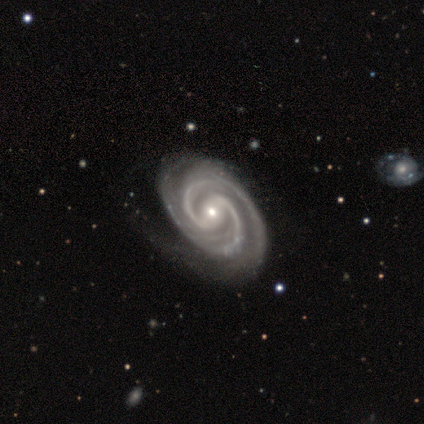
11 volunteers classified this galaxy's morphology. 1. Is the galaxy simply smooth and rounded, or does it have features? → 91% featured or disk, 9% star or artifact, 0% smooth.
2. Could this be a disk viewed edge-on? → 100% no, 0% yes.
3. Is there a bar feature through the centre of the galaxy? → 50% weak, 30% strong, 20% no.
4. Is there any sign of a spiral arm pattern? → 90% yes, 10% no.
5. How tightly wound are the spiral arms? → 56% medium, 44% tight, 0% loose.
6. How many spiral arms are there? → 78% 2, 22% 3, 0% 1, 0% 4, 0% more than 4, 0% can't tell.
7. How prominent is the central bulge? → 80% small, 10% large, 10% moderate, 0% dominant, 0% none.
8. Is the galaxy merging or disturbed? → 40% minor disturbance, 10% none, 0% major disturbance, 0% merger.